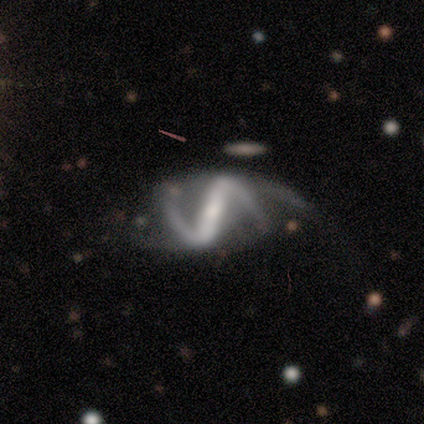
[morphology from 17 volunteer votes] Smooth or featured? 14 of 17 (82%) said featured or disk. Edge-on disk? 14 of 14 (100%) said no. Bar? 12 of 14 (86%) said strong. Spiral arms? 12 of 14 (86%) said yes. Spiral winding? 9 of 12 (75%) said loose. Spiral arm count? 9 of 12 (75%) said 2. Bulge size? 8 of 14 (57%) said small. Merging? 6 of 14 (43%, tied with major disturbance) said none.